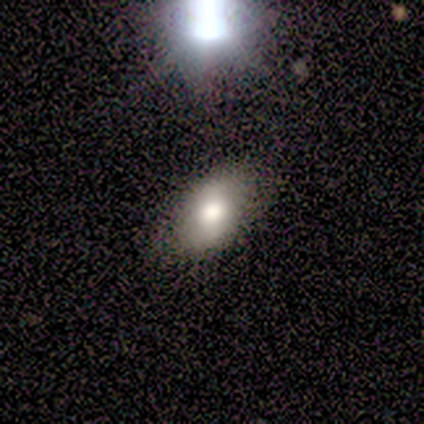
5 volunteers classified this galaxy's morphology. Overall: smooth (80%). How rounded: in between (100%). Merging: none (80%).